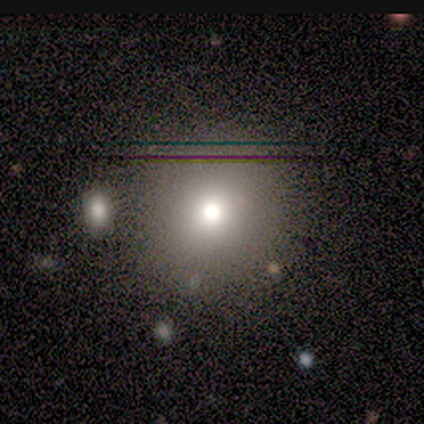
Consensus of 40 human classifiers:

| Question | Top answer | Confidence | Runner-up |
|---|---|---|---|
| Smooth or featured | smooth | 75% | star or artifact (18%) |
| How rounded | round | 97% | in between (3%) |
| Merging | none | 88% | merger (9%) |